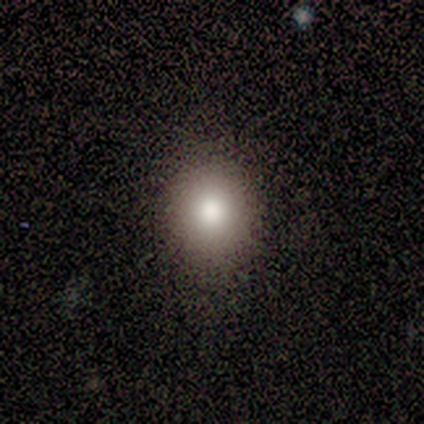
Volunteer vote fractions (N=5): A smooth galaxy with no disk features (100%) that is round (80%). Merging: none (100%).